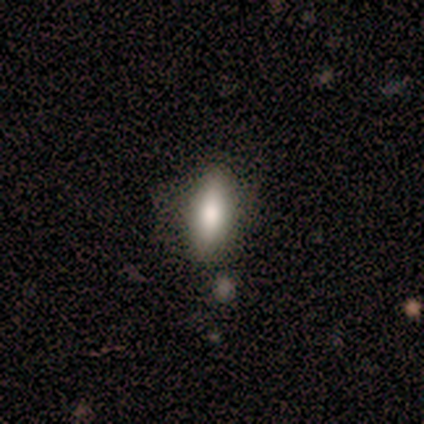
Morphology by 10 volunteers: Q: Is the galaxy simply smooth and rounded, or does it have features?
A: smooth — 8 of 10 (80%).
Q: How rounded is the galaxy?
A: in between — 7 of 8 (88%).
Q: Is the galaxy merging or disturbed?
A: none — 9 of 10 (90%).